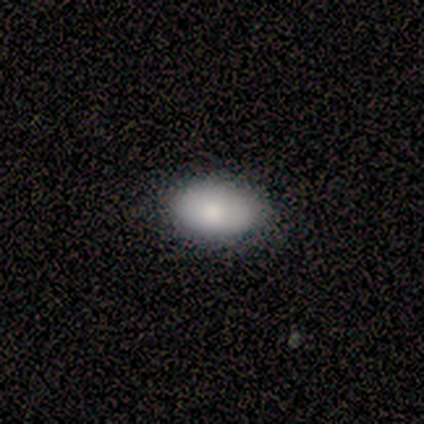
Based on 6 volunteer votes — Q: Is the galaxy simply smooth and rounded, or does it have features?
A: smooth — 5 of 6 (83%).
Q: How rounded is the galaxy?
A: in between — 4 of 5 (80%).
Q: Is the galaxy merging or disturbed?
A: none — 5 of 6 (83%).